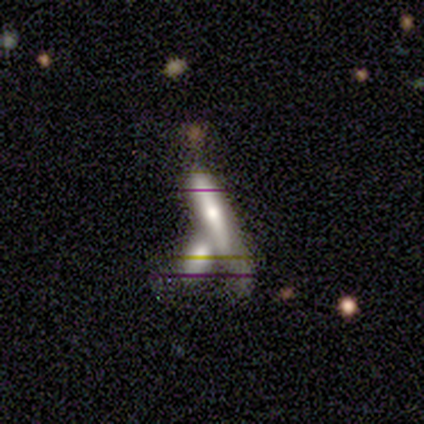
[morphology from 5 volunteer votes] Smooth or featured?
  - smooth: 60% *
  - featured or disk: 40%
  - star or artifact: 0%
How rounded?
  - cigar-shaped: 67% *
  - in between: 33%
  - round: 0%
Merging?
  - merger: 80% *
  - none: 20%
  - minor disturbance: 0%
  - major disturbance: 0%